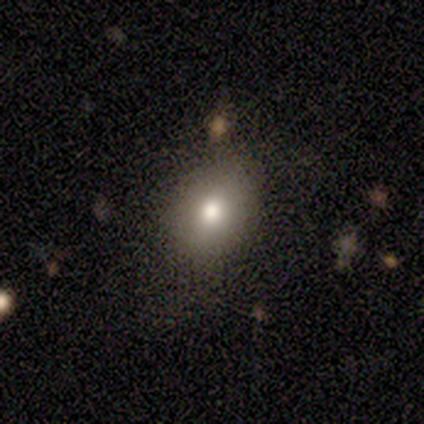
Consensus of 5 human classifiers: This appears to be a smooth galaxy with no disk features (80%) that is round (50%, tied with in between). Merging: minor disturbance (60%).